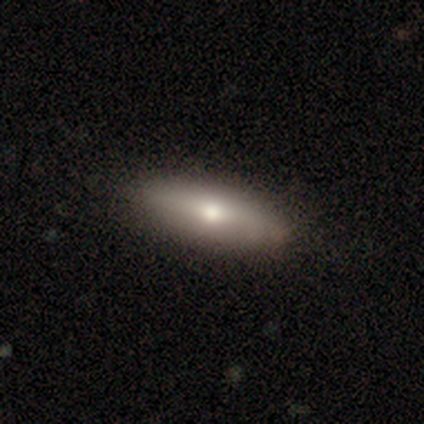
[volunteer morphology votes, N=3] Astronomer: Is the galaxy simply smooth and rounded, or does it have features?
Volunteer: featured or disk — 67%.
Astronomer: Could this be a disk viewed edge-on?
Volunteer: yes — 100%.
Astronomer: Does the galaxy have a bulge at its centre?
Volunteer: rounded — 100%.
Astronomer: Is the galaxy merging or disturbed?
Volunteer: none — 100%.